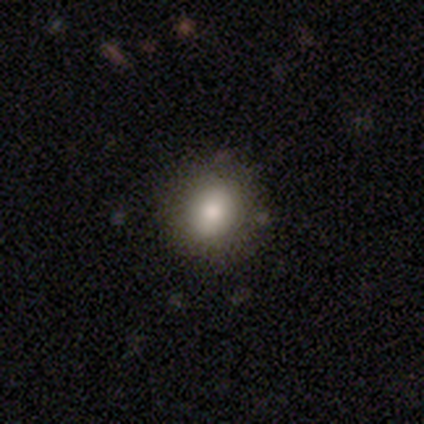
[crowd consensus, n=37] Smooth or featured: smooth — 84% (star or artifact — 11%)
How rounded: round — 84% (in between — 16%)
Merging: none — 82% (minor disturbance — 12%)